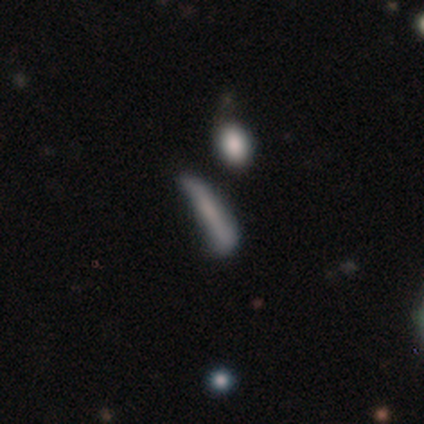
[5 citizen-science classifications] smooth 60%, featured or disk 40%, star or artifact 0%. Down the decision tree: how rounded — cigar-shaped (100%); merging — minor disturbance (60%).